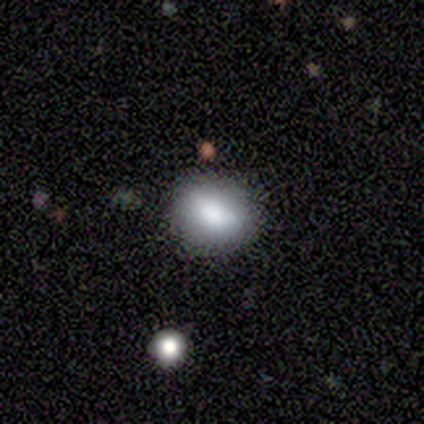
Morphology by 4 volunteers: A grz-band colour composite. It shows a smooth galaxy with no disk features (100%) that is in between round and cigar-shaped (75%). Merging: none (75%).